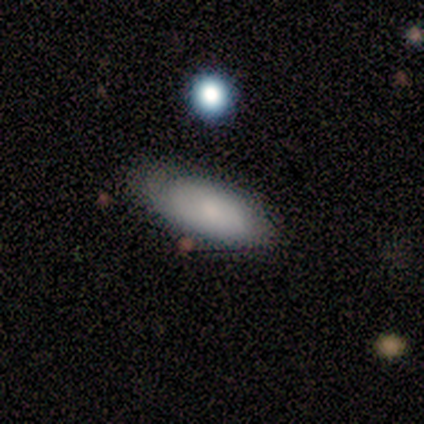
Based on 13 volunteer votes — smooth 54%, featured or disk 31%, star or artifact 15%. Down the decision tree: how rounded — in between (86%); merging — none (73%).